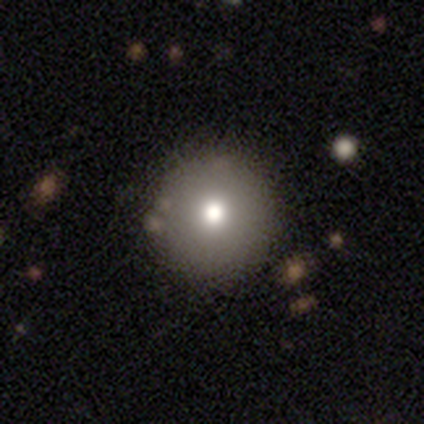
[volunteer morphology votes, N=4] Smooth or featured?
  - smooth: 75% *
  - featured or disk: 25%
  - star or artifact: 0%
How rounded?
  - round: 100% *
  - in between: 0%
  - cigar-shaped: 0%
Merging?
  - none: 100% *
  - minor disturbance: 0%
  - major disturbance: 0%
  - merger: 0%